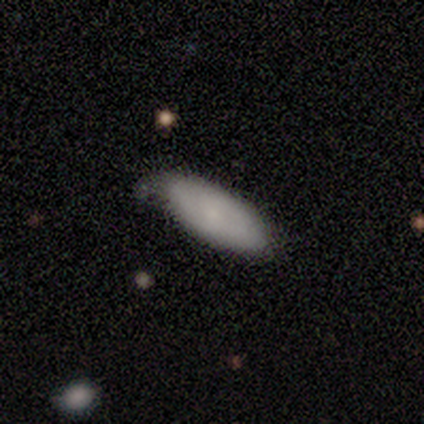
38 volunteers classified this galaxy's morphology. smooth_or_featured: smooth (p=0.79) [alt: featured or disk p=0.11]
how_rounded: in between (p=0.90) [alt: cigar-shaped p=0.10]
merging: none (p=0.65) [alt: minor disturbance p=0.32]